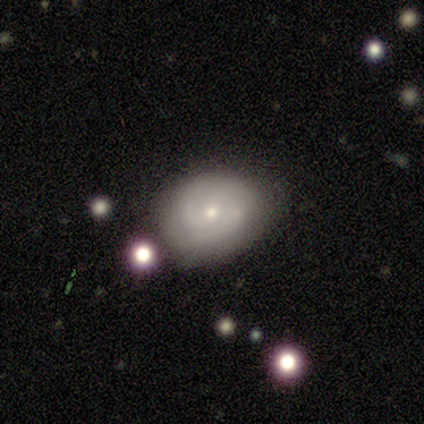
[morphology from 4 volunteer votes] smooth-or-featured: smooth: 50% (tied) | featured or disk: 50% (tied) | star or artifact: 0%
  how-rounded: in between: 100% | round: 0% | cigar-shaped: 0%
  merging: none: 75% | major disturbance: 25% | minor disturbance: 0% | merger: 0%